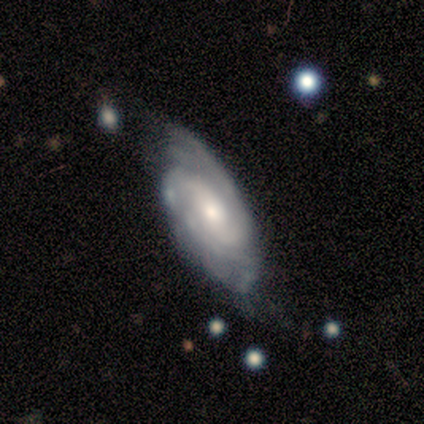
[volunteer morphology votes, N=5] Overall: featured or disk (100%). Edge-on disk: no (100%). Bar: no (60%; strong 20%). Spiral arms: yes (100%). Spiral arm count: can't tell (60%; 1 20%). Spiral winding: tight (80%). Bulge size: small (60%; moderate 40%). Merging: none (60%; minor disturbance 20%).